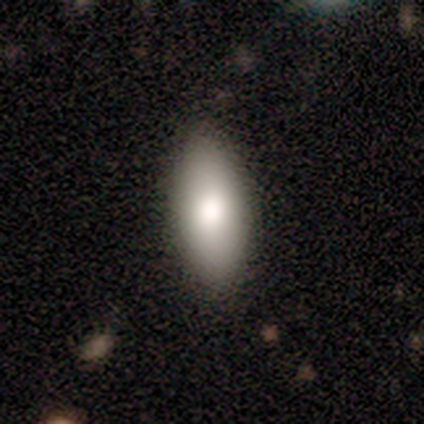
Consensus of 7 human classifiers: Overall: smooth (86%). How rounded: in between (83%). Merging: none (100%).